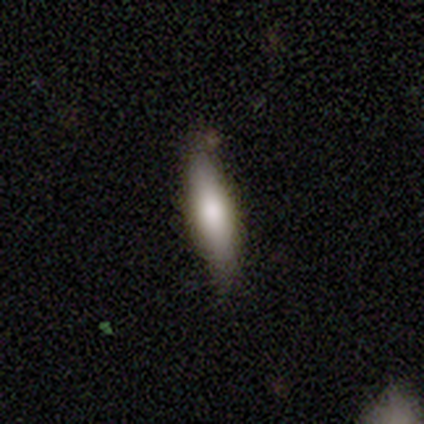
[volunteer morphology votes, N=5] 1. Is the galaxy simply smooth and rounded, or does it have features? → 100% smooth, 0% featured or disk, 0% star or artifact.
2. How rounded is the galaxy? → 60% cigar-shaped, 40% in between, 0% round.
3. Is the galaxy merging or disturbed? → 80% none, 20% minor disturbance, 0% major disturbance, 0% merger.